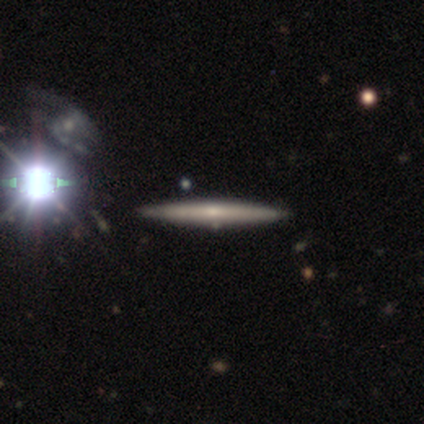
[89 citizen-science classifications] This is possibly a featured or disk galaxy (54%). It is clearly viewed edge-on (100%). Edge-on bulge: likely none (60%). Merging: clearly none (91%).